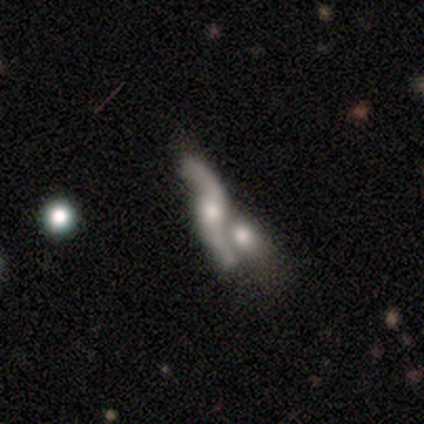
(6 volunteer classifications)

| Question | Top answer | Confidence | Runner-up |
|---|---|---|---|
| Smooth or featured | featured or disk | 67% | smooth (33%) |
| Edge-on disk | no | 100% | — |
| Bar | weak | 50% | tied: no (50%) |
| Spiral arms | yes | 100% | — |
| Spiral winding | loose | 75% | medium (25%) |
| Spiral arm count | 2 | 100% | — |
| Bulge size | small | 75% | moderate (25%) |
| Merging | merger | 83% | minor disturbance (17%) |